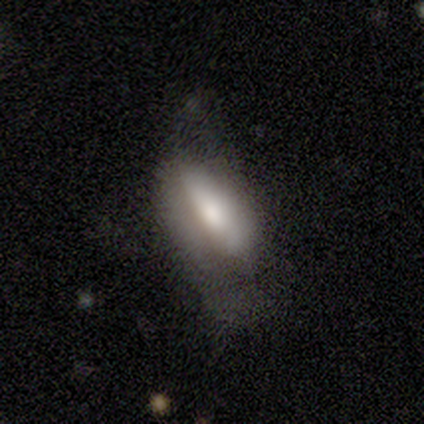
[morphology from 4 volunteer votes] featured or disk 75%, smooth 25%, star or artifact 0%. Down the decision tree: edge-on disk — no (67%); bar — strong (50%, tied with weak); spiral arms — yes (50%, tied with no); spiral arm count — 2 (100%); spiral winding — medium (100%); bulge size — large (50%, tied with moderate); merging — minor disturbance (75%).